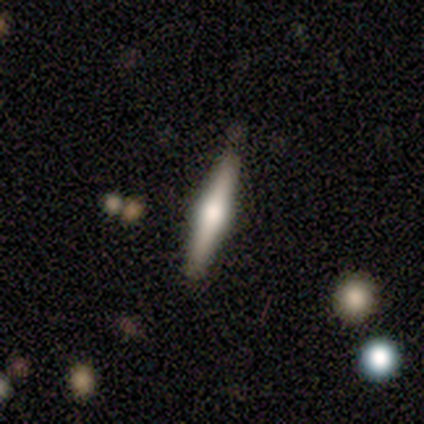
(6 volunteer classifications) Smooth or featured?
  - featured or disk: 83% *
  - smooth: 17%
  - star or artifact: 0%
Edge-on disk?
  - yes: 80% *
  - no: 20%
Edge-on bulge?
  - rounded: 100% *
  - boxy: 0%
  - none: 0%
Merging?
  - none: 83% *
  - minor disturbance: 17%
  - major disturbance: 0%
  - merger: 0%